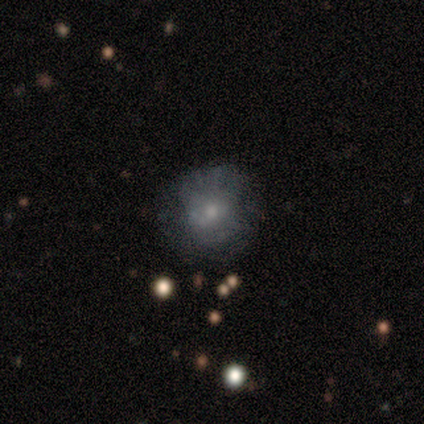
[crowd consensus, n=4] Smooth or featured?
  - smooth: 50% *
  - featured or disk: 25%
  - star or artifact: 25%
How rounded?
  - round: 100% *
  - in between: 0%
  - cigar-shaped: 0%
Merging?
  - none: 67% *
  - minor disturbance: 33%
  - major disturbance: 0%
  - merger: 0%